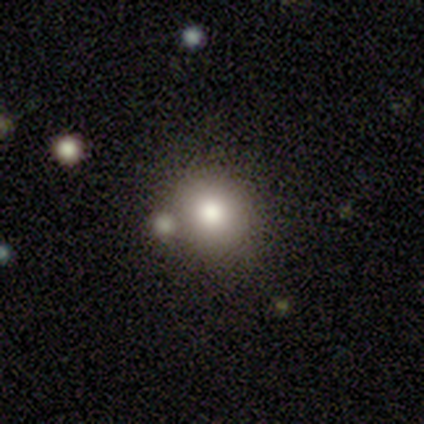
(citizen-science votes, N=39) Smooth or featured: smooth — 77% (star or artifact — 13%)
How rounded: round — 80% (in between — 20%)
Merging: none — 74% (merger — 24%)